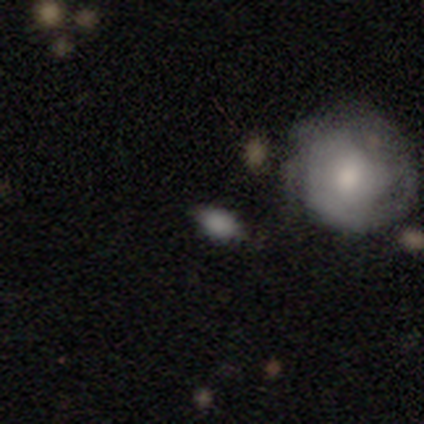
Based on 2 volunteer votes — Volunteers were most divided on "smooth or featured" (2-way tie): smooth: 50%, featured or disk: 50%, star or artifact: 0%; "merging" (2-way tie): none: 50%, minor disturbance: 50%, major disturbance: 0%, merger: 0%. More confident: how rounded — in between (100%).